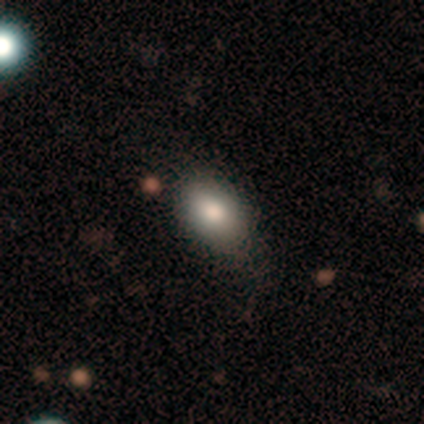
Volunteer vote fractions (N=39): Morphology: type=smooth (82%); roundness=in between (97%); merging=none (69%).